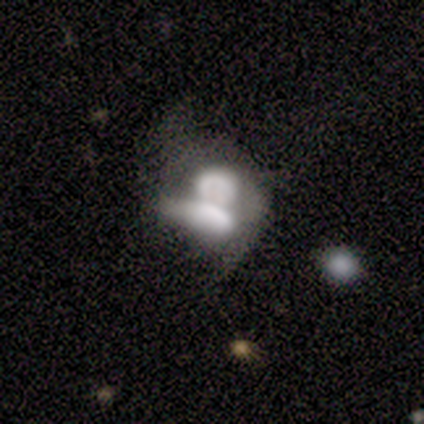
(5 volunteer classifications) Overall: featured or disk (60%; smooth 40%). Edge-on disk: no (100%). Bar: no (100%). Spiral arms: no (100%). Bulge size: dominant (33%, tied with moderate and none). Merging: merger (100%).